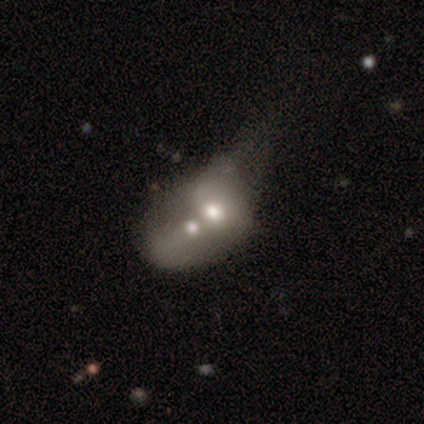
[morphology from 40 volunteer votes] Overall: smooth (50%, tied with featured or disk). How rounded: in between (75%). Merging: merger (75%).